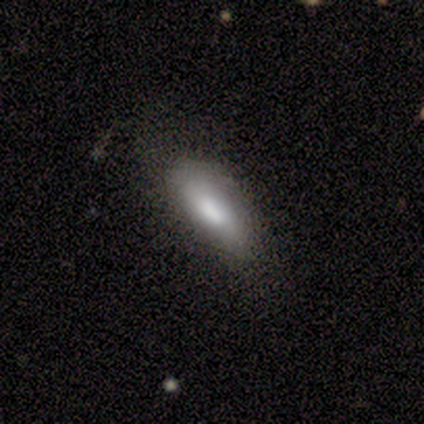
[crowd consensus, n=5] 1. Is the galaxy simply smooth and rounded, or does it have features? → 80% smooth, 20% featured or disk, 0% star or artifact.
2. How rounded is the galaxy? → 100% in between, 0% round, 0% cigar-shaped.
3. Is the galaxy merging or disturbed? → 60% minor disturbance, 40% none, 0% major disturbance, 0% merger.